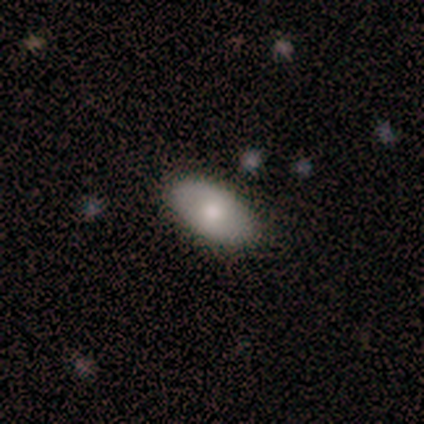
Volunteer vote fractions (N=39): A smooth galaxy with no disk features (72%) that is in between round and cigar-shaped (100%).

Vote fractions:
- Smooth or featured? smooth: 72% / featured or disk: 23% / star or artifact: 5%
- How rounded? in between: 100% / round: 0% / cigar-shaped: 0%
- Merging? none: 95% / minor disturbance: 5% / major disturbance: 0% / merger: 0%